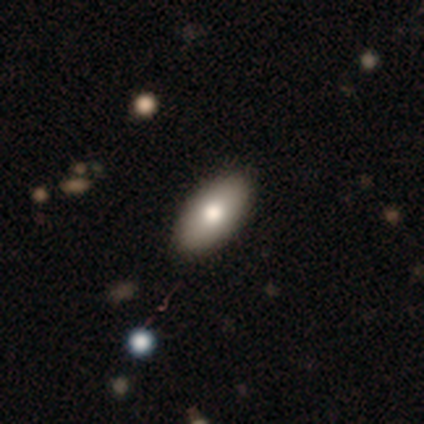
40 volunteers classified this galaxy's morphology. smooth_or_featured: smooth (p=0.82) [alt: featured or disk p=0.12]
how_rounded: in between (p=0.97) [alt: cigar-shaped p=0.03]
merging: none (p=0.74) [alt: minor disturbance p=0.03]